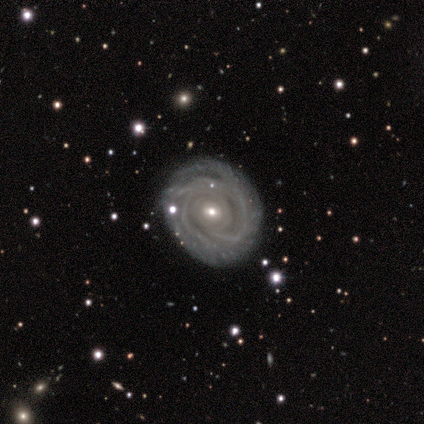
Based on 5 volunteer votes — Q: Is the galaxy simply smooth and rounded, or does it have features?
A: featured or disk — 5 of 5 (100%).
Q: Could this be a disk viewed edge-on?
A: no — 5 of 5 (100%).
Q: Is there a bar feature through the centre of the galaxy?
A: no — 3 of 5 (60%).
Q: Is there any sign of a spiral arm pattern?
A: yes — 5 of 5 (100%).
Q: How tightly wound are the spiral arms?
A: tight — 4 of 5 (80%).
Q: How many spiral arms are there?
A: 3 — 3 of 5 (60%).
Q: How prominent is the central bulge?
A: small — 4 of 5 (80%).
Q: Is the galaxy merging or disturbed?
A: none — 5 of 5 (100%).